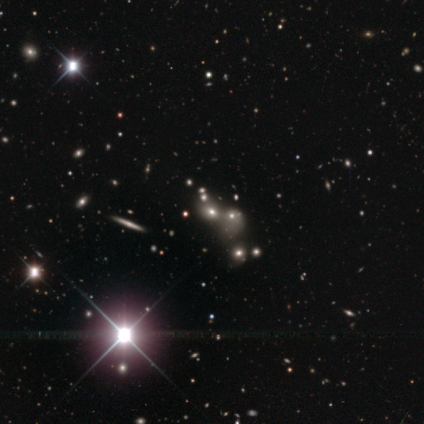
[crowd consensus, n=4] smooth-or-featured: smooth: 50% (tied) | star or artifact: 50% (tied) | featured or disk: 0%
  how-rounded: round: 50% (tied) | in between: 50% (tied) | cigar-shaped: 0%
  merging: none: 50% (tied) | merger: 50% (tied) | minor disturbance: 0% | major disturbance: 0%